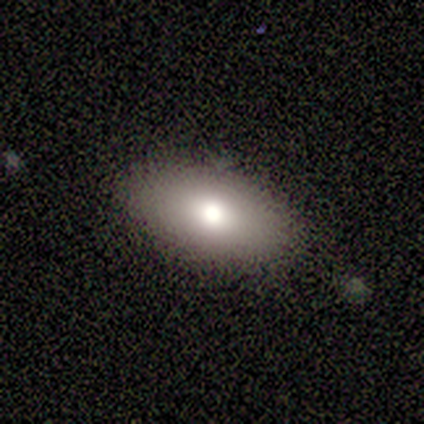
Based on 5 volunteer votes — A smooth galaxy with no disk features (100%) that is in between round and cigar-shaped (100%).

Vote fractions:
- Smooth or featured? smooth: 100% / featured or disk: 0% / star or artifact: 0%
- How rounded? in between: 100% / round: 0% / cigar-shaped: 0%
- Merging? none: 100% / minor disturbance: 0% / major disturbance: 0% / merger: 0%